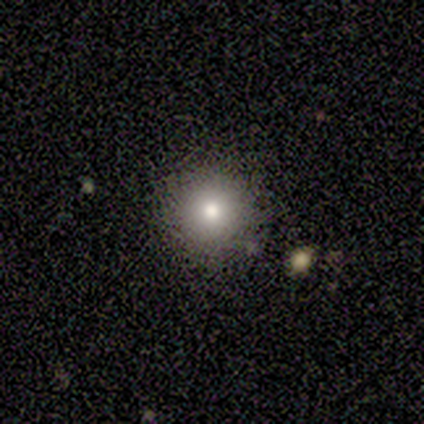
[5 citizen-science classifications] Morphology: type=smooth (100%); roundness=round (100%); merging=none (100%).